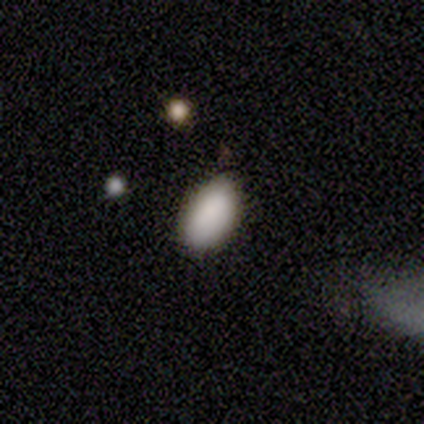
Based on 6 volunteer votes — This appears to be a smooth galaxy with no disk features (100%) that is in between round and cigar-shaped (100%). Merging: none (83%).